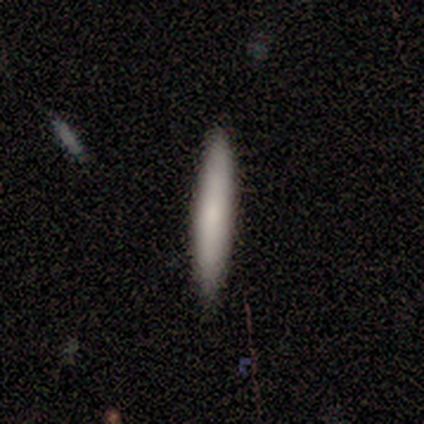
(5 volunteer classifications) A smooth galaxy with no disk features (60%) that is cigar-shaped (67%). Merging: none (100%).